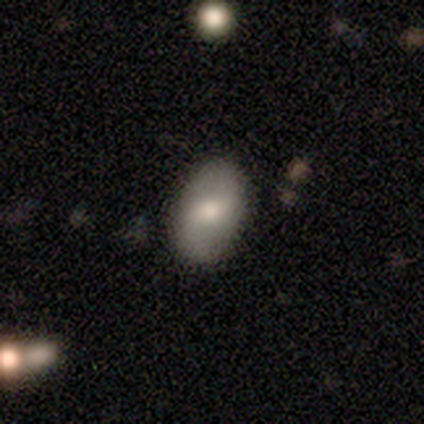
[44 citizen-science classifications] Smooth or featured: smooth — 52% (featured or disk — 39%)
How rounded: in between — 96% (round — 4%)
Merging: none — 88% (minor disturbance — 8%)